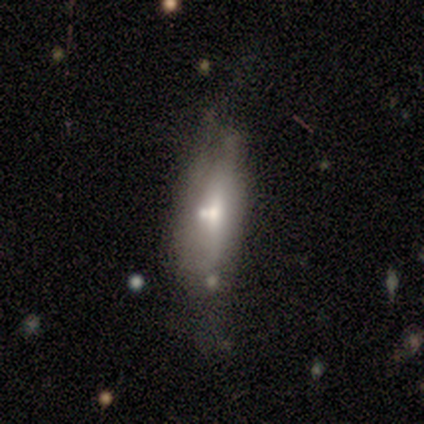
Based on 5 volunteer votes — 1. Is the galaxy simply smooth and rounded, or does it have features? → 60% featured or disk, 20% smooth, 20% star or artifact.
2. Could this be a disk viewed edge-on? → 67% yes, 33% no.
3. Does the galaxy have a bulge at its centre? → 100% rounded, 0% boxy, 0% none.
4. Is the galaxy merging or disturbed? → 50% none, 25% minor disturbance, 25% merger, 0% major disturbance.